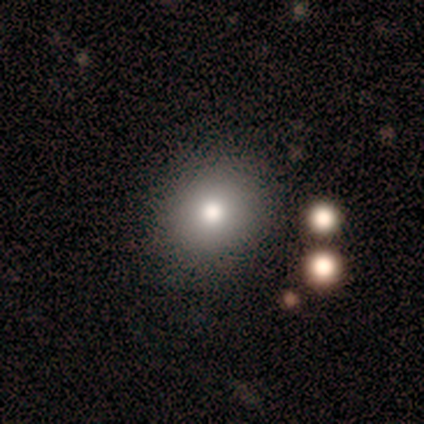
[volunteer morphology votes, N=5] Smooth or featured? 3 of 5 (60%) said smooth. How rounded? 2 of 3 (67%) said in between. Merging? 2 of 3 (67%) said minor disturbance.